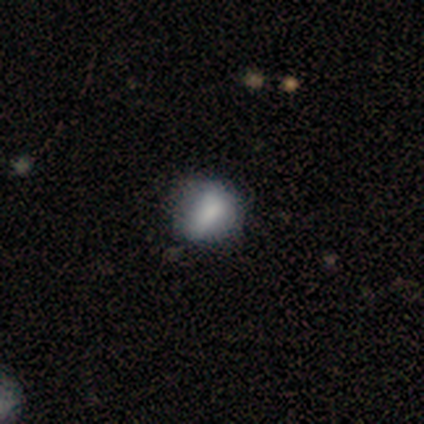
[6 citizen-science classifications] Smooth or featured: featured or disk — 50% (star or artifact — 33%)
Edge-on disk: no — 100%
Bar: strong — 33% (tied with weak — 33%; no — 33%)
Spiral arms: no — 100%
Bulge size: moderate — 33% (tied with small — 33%; none — 33%)
Merging: none — 75% (minor disturbance — 25%)